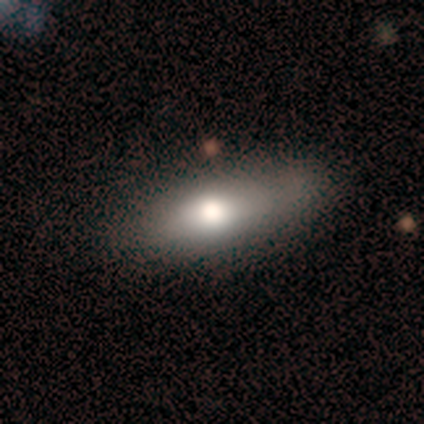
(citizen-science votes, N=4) Smooth or featured?
  - smooth: 100% *
  - featured or disk: 0%
  - star or artifact: 0%
How rounded?
  - in between: 100% *
  - round: 0%
  - cigar-shaped: 0%
Merging?
  - none: 100% *
  - minor disturbance: 0%
  - major disturbance: 0%
  - merger: 0%